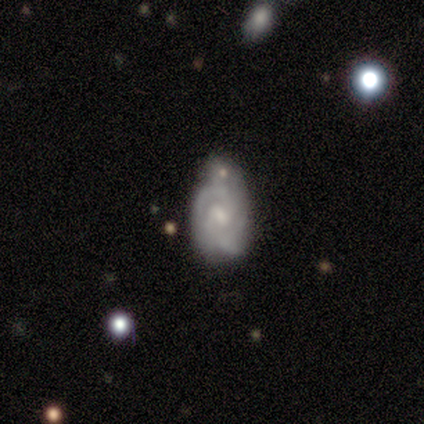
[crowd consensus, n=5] A featured or disk galaxy (80%) with a weak bar (100%), 2 (67%) tight (100%) spiral arms (75%) and a small central bulge (75%).

Vote fractions:
- Smooth or featured? featured or disk: 80% / star or artifact: 20% / smooth: 0%
- Edge-on disk? no: 100% / yes: 0%
- Bar? weak: 100% / strong: 0% / no: 0%
- Spiral arms? yes: 75% / no: 25%
- Spiral winding? tight: 100% / medium: 0% / loose: 0%
- Spiral arm count? 2: 67% / 3: 33% / 1: 0% / 4: 0% / more than 4: 0% / can't tell: 0%
- Bulge size? small: 75% / moderate: 25% / dominant: 0% / large: 0% / none: 0%
- Merging? minor disturbance: 50% / none: 25% / merger: 25% / major disturbance: 0%